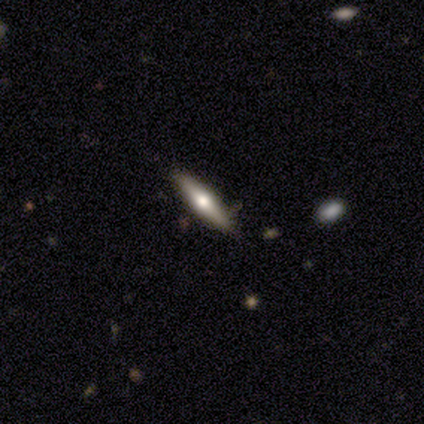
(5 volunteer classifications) Smooth or featured? featured or disk (40%, tied with star or artifact)
Edge-on disk? yes (100%)
Edge-on bulge? rounded (100%)
Merging? none (67%)